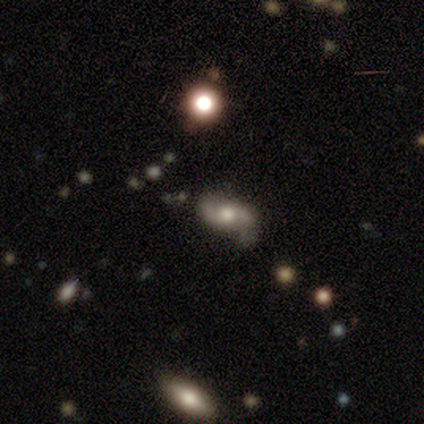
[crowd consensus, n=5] Volunteers were most divided on "smooth or featured" (2-way tie): featured or disk: 40%, star or artifact: 40%, smooth: 20%; "spiral winding" (2-way tie): tight: 50%, loose: 50%, medium: 0%. More confident: edge-on disk — no (100%); bar — no (100%); spiral arms — yes (100%); spiral arm count — 2 (100%); bulge size — moderate (100%); merging — none (100%).